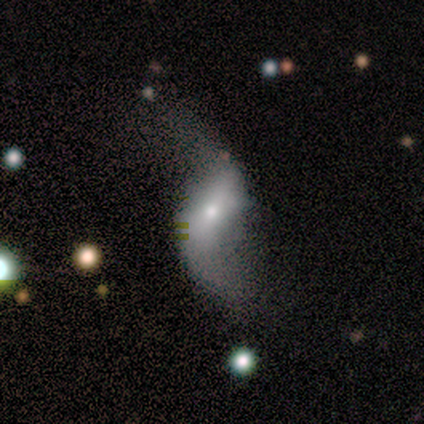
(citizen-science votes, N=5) smooth_or_featured: featured or disk (p=0.80) [alt: smooth p=0.20]
disk_edge_on: no (p=0.75) [alt: yes p=0.25]
bar: weak (p=0.67) [alt: strong p=0.33]
has_spiral_arms: yes (p=1.00)
spiral_winding: loose (p=1.00)
spiral_arm_count: 2 (p=1.00)
bulge_size: moderate (p=0.67) [alt: small p=0.33]
merging: major disturbance (p=0.60) [alt: none p=0.40]